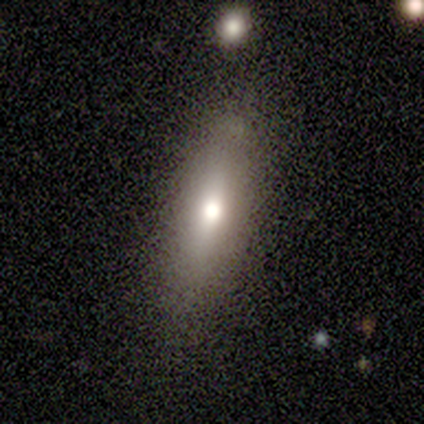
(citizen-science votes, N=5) A smooth galaxy with no disk features (80%) that is cigar-shaped (75%).

Vote fractions:
- Smooth or featured? smooth: 80% / star or artifact: 20% / featured or disk: 0%
- How rounded? cigar-shaped: 75% / in between: 25% / round: 0%
- Merging? none: 50% / minor disturbance: 25% / major disturbance: 25% / merger: 0%